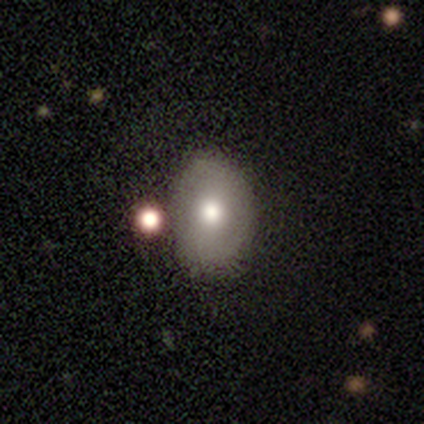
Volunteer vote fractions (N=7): A smooth galaxy with no disk features (43%, tied with featured or disk) that is in between round and cigar-shaped (100%).

Vote fractions:
- Smooth or featured? smooth: 43% (tied) / featured or disk: 43% (tied) / star or artifact: 14%
- How rounded? in between: 100% / round: 0% / cigar-shaped: 0%
- Merging? none: 100% / minor disturbance: 0% / major disturbance: 0% / merger: 0%